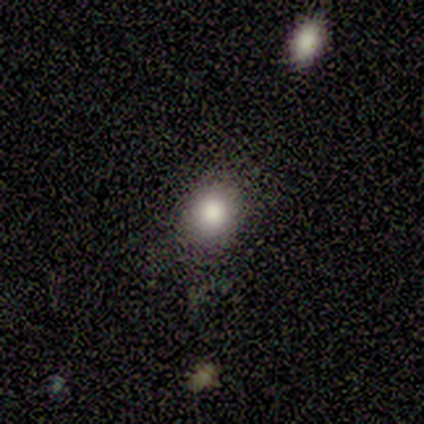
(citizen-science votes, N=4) Smooth or featured? smooth (75%)
How rounded? round (67%)
Merging? none (33%, tied with minor disturbance and merger)